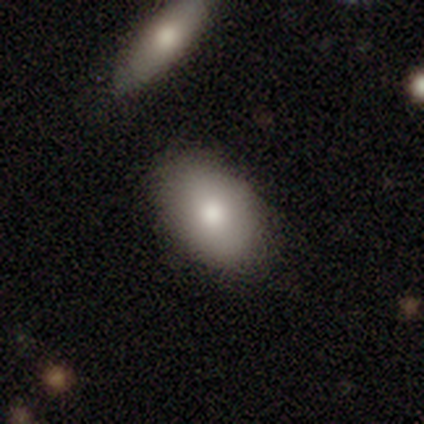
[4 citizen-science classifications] smooth-or-featured: smooth: 75% | featured or disk: 25% | star or artifact: 0%
  how-rounded: in between: 100% | round: 0% | cigar-shaped: 0%
  merging: none: 75% | minor disturbance: 25% | major disturbance: 0% | merger: 0%